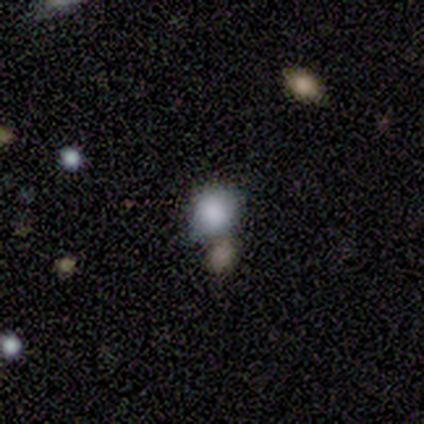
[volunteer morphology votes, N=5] Smooth or featured: smooth — 100%
How rounded: round — 100%
Merging: none — 80% (merger — 20%)